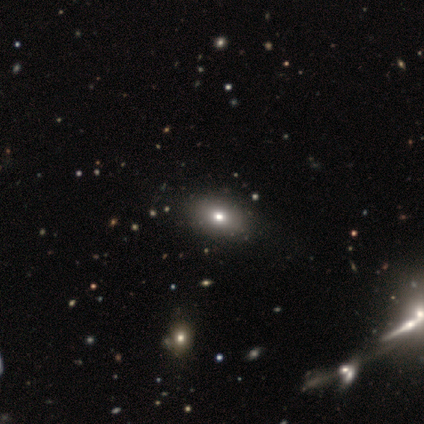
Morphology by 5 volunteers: Volunteers were most divided on "smooth or featured": smooth: 60%, featured or disk: 40%, star or artifact: 0%. More confident: how rounded — in between (100%); merging — none (80%).